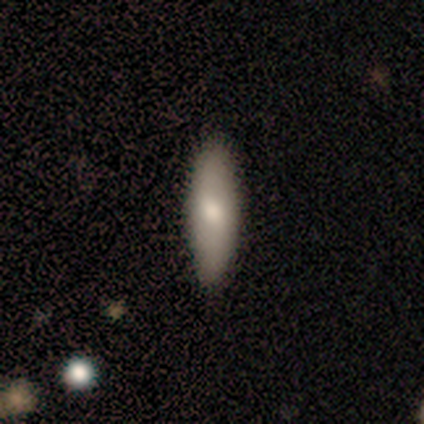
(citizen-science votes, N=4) Volunteers were most divided on "smooth or featured" (2-way tie): smooth: 50%, featured or disk: 50%, star or artifact: 0%; "how rounded" (2-way tie): in between: 50%, cigar-shaped: 50%, round: 0%. More confident: merging — none (100%).